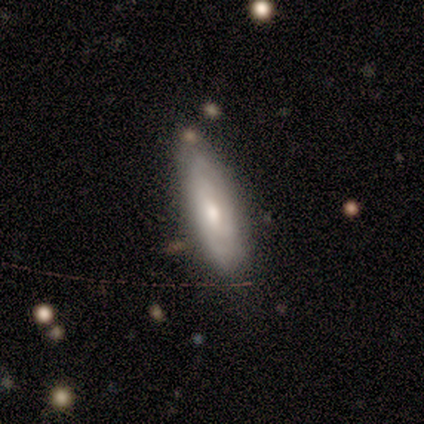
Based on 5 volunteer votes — A smooth galaxy with no disk features (80%) that is in between round and cigar-shaped (75%). Merging: none (100%).